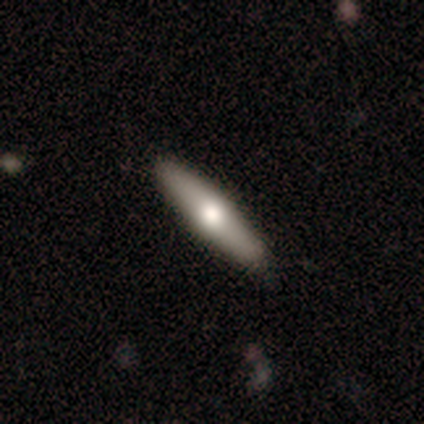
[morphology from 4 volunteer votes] A featured or disk galaxy (75%) viewed edge-on (100%) with a rounded central bulge (100%).

Vote fractions:
- Smooth or featured? featured or disk: 75% / smooth: 25% / star or artifact: 0%
- Edge-on disk? yes: 100% / no: 0%
- Edge-on bulge? rounded: 100% / boxy: 0% / none: 0%
- Merging? none: 100% / minor disturbance: 0% / major disturbance: 0% / merger: 0%